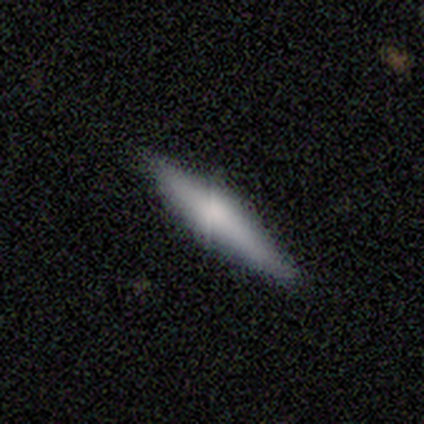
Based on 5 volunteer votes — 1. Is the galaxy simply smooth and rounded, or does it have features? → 60% smooth, 40% featured or disk, 0% star or artifact.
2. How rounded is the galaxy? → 100% cigar-shaped, 0% round, 0% in between.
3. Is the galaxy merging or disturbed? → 100% none, 0% minor disturbance, 0% major disturbance, 0% merger.